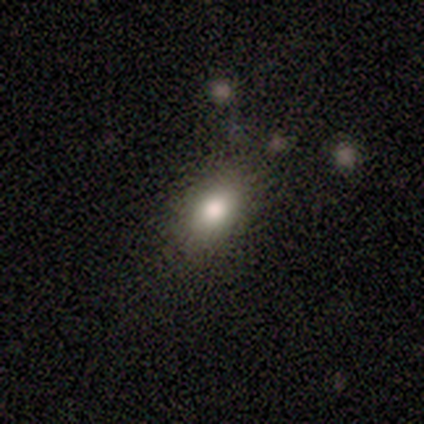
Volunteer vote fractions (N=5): smooth-or-featured: smooth: 80% | featured or disk: 20% | star or artifact: 0%
  how-rounded: in between: 100% | round: 0% | cigar-shaped: 0%
  merging: none: 80% | minor disturbance: 20% | major disturbance: 0% | merger: 0%